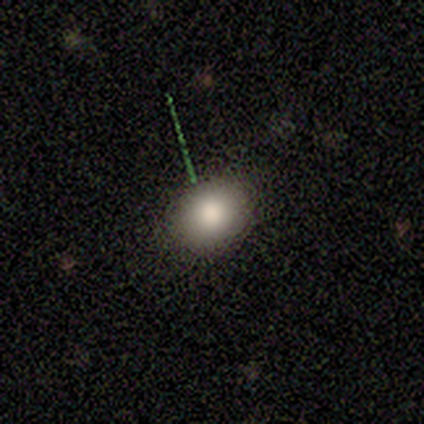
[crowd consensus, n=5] Volunteers were most divided on "how rounded": in between: 75%, round: 25%, cigar-shaped: 0%. More confident: merging — none (100%); smooth or featured — smooth (80%).